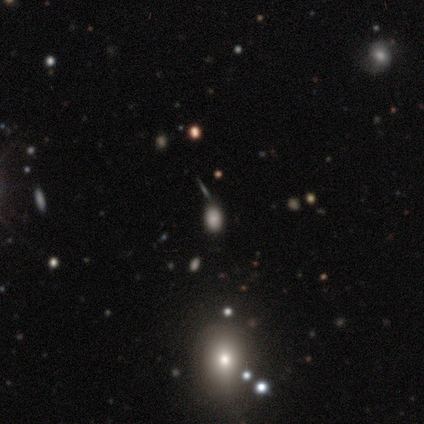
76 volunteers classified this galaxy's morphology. Q: Smooth or featured?
A: smooth (76%); runner-up: featured or disk (12%)
Q: How rounded?
A: in between (83%); runner-up: round (16%)
Q: Merging?
A: none (78%); runner-up: minor disturbance (12%)